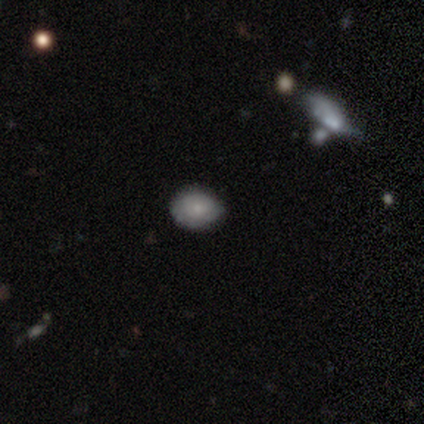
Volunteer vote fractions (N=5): smooth 40% (tied), star or artifact 40% (tied), featured or disk 20%. Down the decision tree: how rounded — in between (100%); merging — minor disturbance (67%).